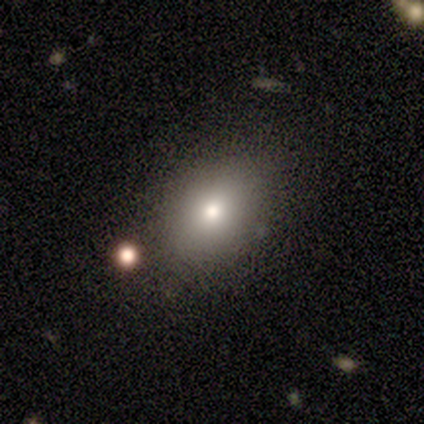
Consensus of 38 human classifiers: This appears to be a smooth galaxy with no disk features (82%) that is in between round and cigar-shaped (71%). Merging: none (80%).